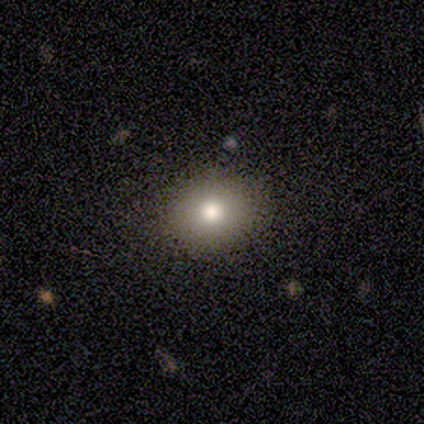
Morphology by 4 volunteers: A smooth galaxy with no disk features (100%) that is in between round and cigar-shaped (75%).

Vote fractions:
- Smooth or featured? smooth: 100% / featured or disk: 0% / star or artifact: 0%
- How rounded? in between: 75% / round: 25% / cigar-shaped: 0%
- Merging? none: 75% / minor disturbance: 25% / major disturbance: 0% / merger: 0%